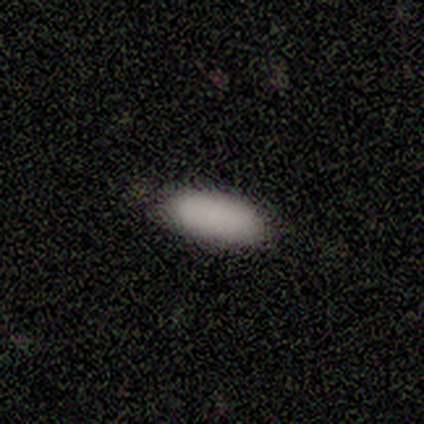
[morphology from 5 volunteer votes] Smooth or featured?
  - smooth: 80% *
  - featured or disk: 20%
  - star or artifact: 0%
How rounded?
  - in between: 75% *
  - cigar-shaped: 25%
  - round: 0%
Merging?
  - none: 80% *
  - minor disturbance: 20%
  - major disturbance: 0%
  - merger: 0%